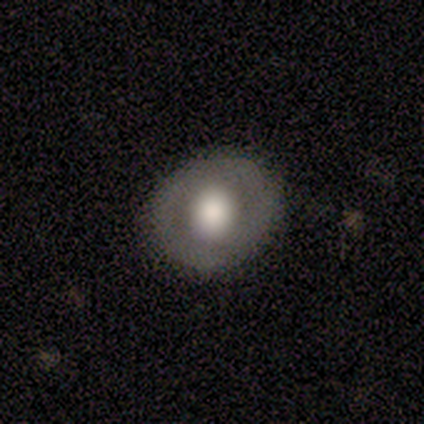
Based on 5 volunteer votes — Smooth or featured: smooth — 60% (featured or disk — 40%)
How rounded: round — 100%
Merging: none — 100%